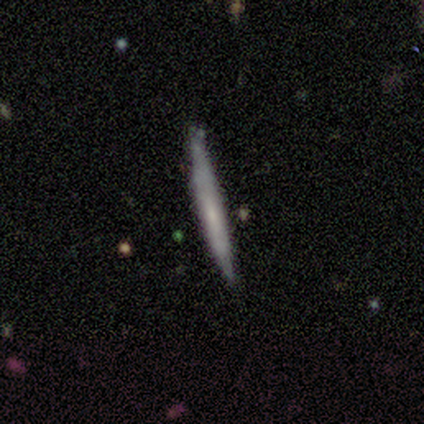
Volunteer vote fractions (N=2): smooth 50% (tied), featured or disk 50% (tied), star or artifact 0%. Down the decision tree: how rounded — cigar-shaped (100%); merging — none (100%).